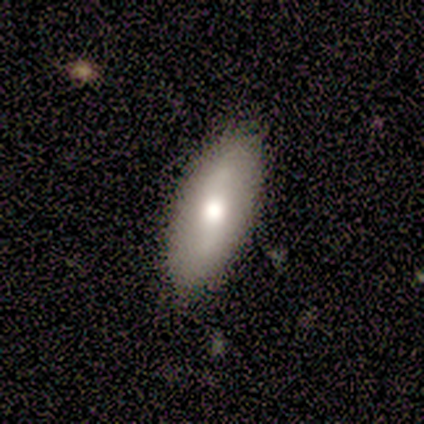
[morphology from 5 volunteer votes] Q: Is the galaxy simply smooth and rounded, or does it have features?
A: featured or disk — 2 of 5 (40%, tied with star or artifact).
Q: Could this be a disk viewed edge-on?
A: no — 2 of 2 (100%).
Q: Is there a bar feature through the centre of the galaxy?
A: weak — 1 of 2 (50%, tied with no).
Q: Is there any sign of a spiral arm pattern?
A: yes — 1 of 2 (50%, tied with no).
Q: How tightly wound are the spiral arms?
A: loose — 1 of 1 (100%).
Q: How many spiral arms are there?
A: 2 — 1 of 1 (100%).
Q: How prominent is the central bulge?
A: moderate — 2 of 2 (100%).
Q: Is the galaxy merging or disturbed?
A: none — 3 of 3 (100%).